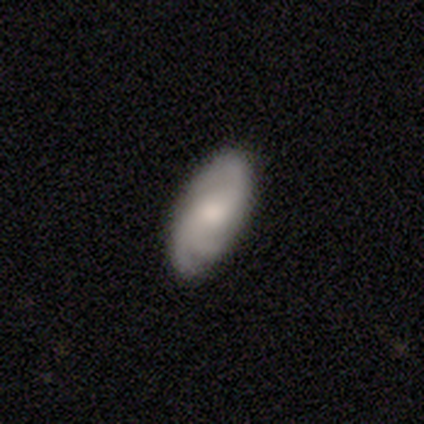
Smooth or featured? featured or disk (58%)
Edge-on disk? no (100%)
Bar? no (55%)
Spiral arms? yes (91%)
Spiral winding? medium (55%)
Spiral arm count? 3 (60%)
Bulge size? moderate (55%)
Merging? none (79%)